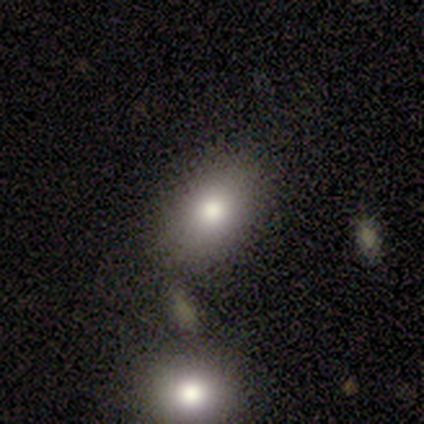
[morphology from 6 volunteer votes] type=smooth (83%); roundness=in between (80%); merging=none (80%).